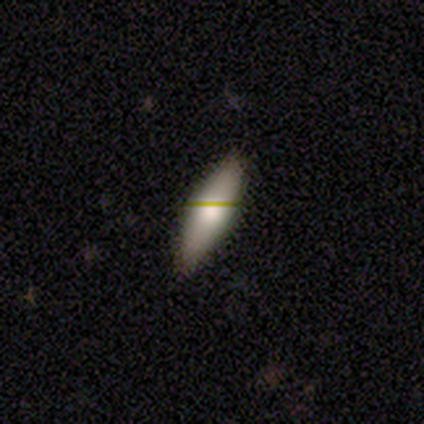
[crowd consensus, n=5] Smooth or featured? smooth (40%, tied with featured or disk)
How rounded? in between (50%, tied with cigar-shaped)
Merging? none (100%)